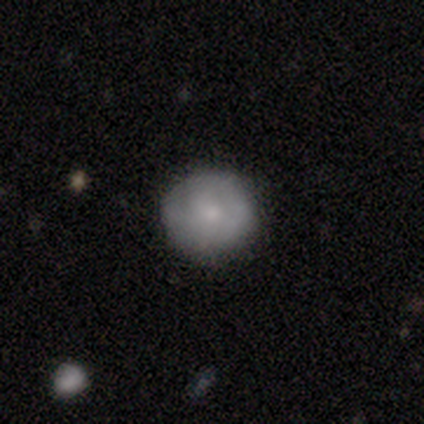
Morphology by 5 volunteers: smooth-or-featured: smooth: 60% | featured or disk: 40% | star or artifact: 0%
  how-rounded: round: 100% | in between: 0% | cigar-shaped: 0%
  merging: none: 80% | minor disturbance: 20% | major disturbance: 0% | merger: 0%